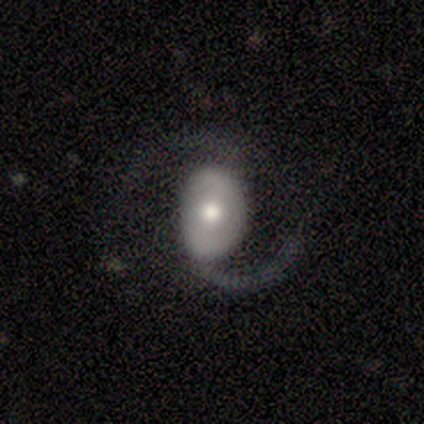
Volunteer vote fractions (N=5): Morphology: type=featured or disk (80%); edge-on=no (100%); bar=no (50%); spiral arms=yes (100%); winding=medium (75%); arm count=2 (100%); bulge=moderate (75%); merging=none (80%).